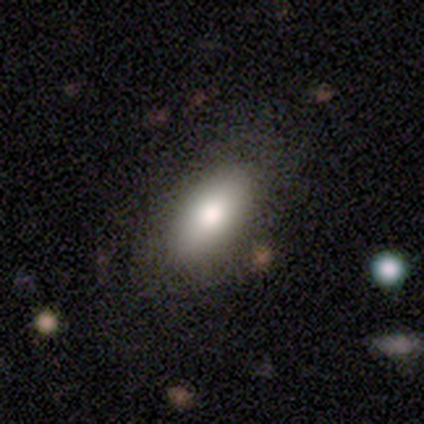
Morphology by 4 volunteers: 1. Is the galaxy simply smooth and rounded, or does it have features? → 100% smooth, 0% featured or disk, 0% star or artifact.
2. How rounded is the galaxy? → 75% in between, 25% cigar-shaped, 0% round.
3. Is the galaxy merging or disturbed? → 100% none, 0% minor disturbance, 0% major disturbance, 0% merger.